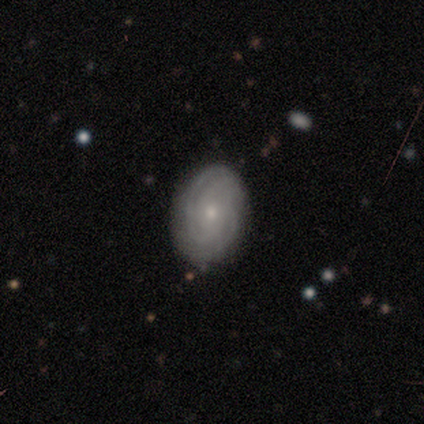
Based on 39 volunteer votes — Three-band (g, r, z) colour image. It shows a featured or disk galaxy (82%) with no bar (73%), tight (70%) spiral arms (100%) and a small central bulge (80%). Merging: none (81%).